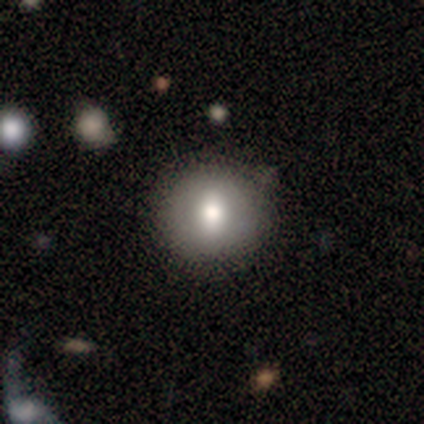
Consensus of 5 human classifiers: Smooth or featured?
  - smooth: 80% *
  - star or artifact: 20%
  - featured or disk: 0%
How rounded?
  - round: 75% *
  - in between: 25%
  - cigar-shaped: 0%
Merging?
  - none: 100% *
  - minor disturbance: 0%
  - major disturbance: 0%
  - merger: 0%